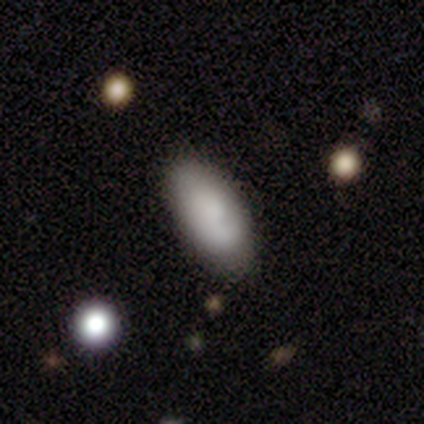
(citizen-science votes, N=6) smooth 100%, featured or disk 0%, star or artifact 0%. Down the decision tree: how rounded — in between (100%); merging — none (83%).